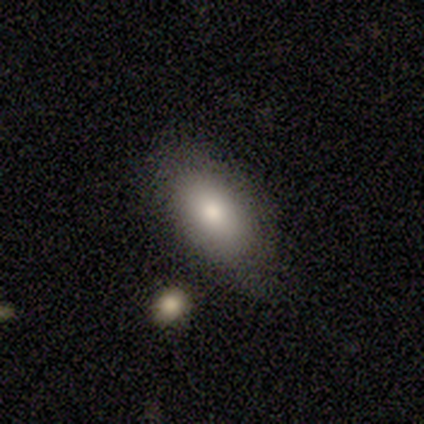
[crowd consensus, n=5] Smooth or featured? smooth (80%)
How rounded? in between (100%)
Merging? none (80%)